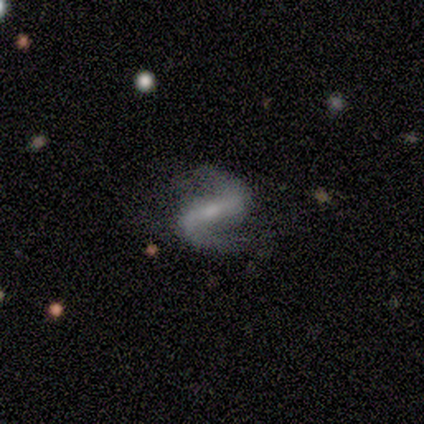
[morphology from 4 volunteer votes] smooth_or_featured: featured or disk (p=1.00)
disk_edge_on: no (p=1.00)
bar: strong (p=0.50) [tied with: weak p=0.50]
has_spiral_arms: yes (p=1.00)
spiral_winding: loose (p=1.00)
spiral_arm_count: 2 (p=1.00)
bulge_size: small (p=0.75) [alt: moderate p=0.25]
merging: none (p=0.75) [alt: merger p=0.25]